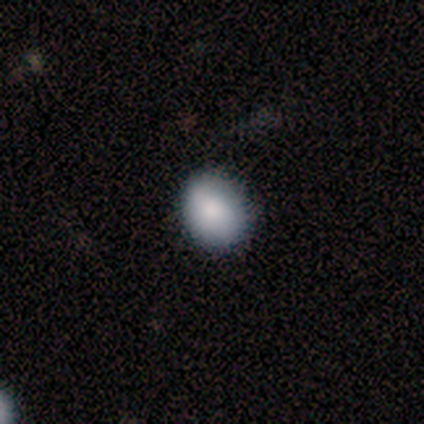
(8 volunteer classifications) Q: Smooth or featured?
A: smooth (62%); runner-up: featured or disk (25%)
Q: How rounded?
A: round (60%); runner-up: in between (40%)
Q: Merging?
A: none (86%); runner-up: minor disturbance (14%)